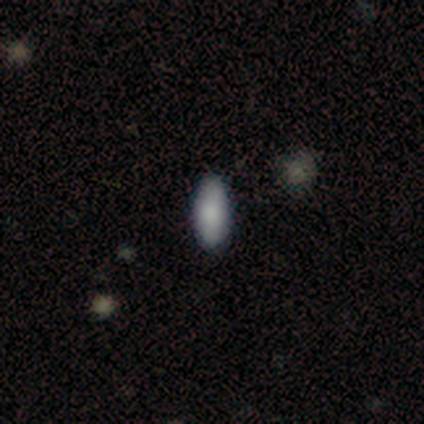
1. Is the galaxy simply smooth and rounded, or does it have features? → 40% smooth (tied), 40% star or artifact (tied), 20% featured or disk.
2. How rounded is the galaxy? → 100% in between, 0% round, 0% cigar-shaped.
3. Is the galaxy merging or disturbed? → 67% minor disturbance, 33% none, 0% major disturbance, 0% merger.